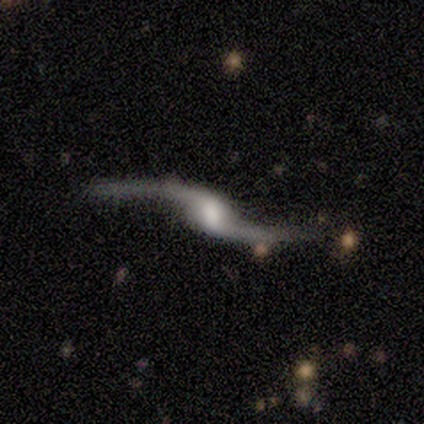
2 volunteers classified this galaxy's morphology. Smooth or featured? 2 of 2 (100%) said featured or disk. Edge-on disk? 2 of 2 (100%) said no. Bar? 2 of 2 (100%) said weak. Spiral arms? 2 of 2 (100%) said yes. Spiral winding? 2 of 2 (100%) said loose. Spiral arm count? 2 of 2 (100%) said 2. Bulge size? 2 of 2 (100%) said moderate. Merging? 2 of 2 (100%) said none.